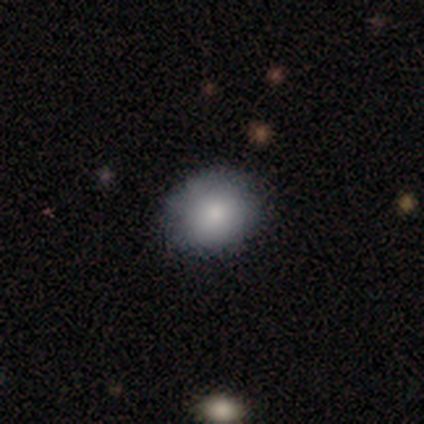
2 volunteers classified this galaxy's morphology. Volunteers were most divided on "smooth or featured" (2-way tie): smooth: 50%, featured or disk: 50%, star or artifact: 0%. More confident: how rounded — round (100%); merging — none (100%).